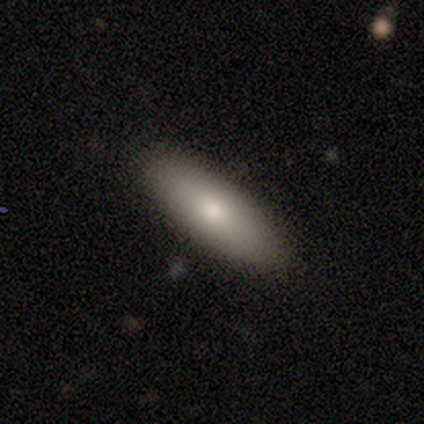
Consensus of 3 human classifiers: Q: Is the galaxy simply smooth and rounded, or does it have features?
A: smooth — 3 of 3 (100%).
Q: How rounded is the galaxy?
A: in between — 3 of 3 (100%).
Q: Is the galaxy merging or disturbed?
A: none — 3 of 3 (100%).